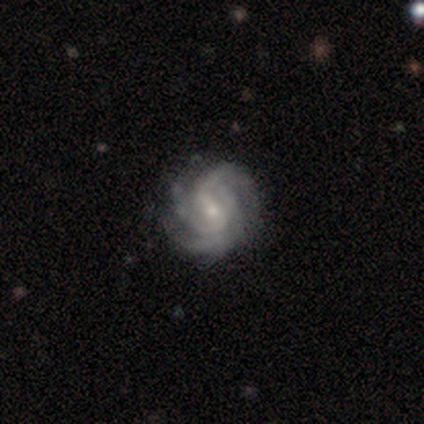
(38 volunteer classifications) Smooth or featured?
  - featured or disk: 92% *
  - star or artifact: 5%
  - smooth: 3%
Edge-on disk?
  - no: 100% *
  - yes: 0%
Bar?
  - weak: 51% *
  - no: 26%
  - strong: 23%
Spiral arms?
  - yes: 97% *
  - no: 3%
Spiral winding?
  - tight: 68% *
  - medium: 29%
  - loose: 3%
Spiral arm count?
  - 3: 41% *
  - 4: 29%
  - 2: 18%
  - can't tell: 12%
  - 1: 0%
  - more than 4: 0%
Bulge size?
  - small: 60% *
  - moderate: 29%
  - none: 9%
  - large: 3%
  - dominant: 0%
Merging?
  - none: 56% *
  - minor disturbance: 17%
  - major disturbance: 0%
  - merger: 0%